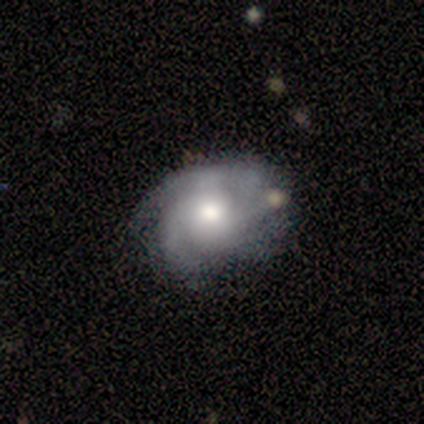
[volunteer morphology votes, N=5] Volunteers were most divided on "smooth or featured": smooth: 60%, featured or disk: 40%, star or artifact: 0%. Remaining: how rounded — in between (100%); merging — none (40%).